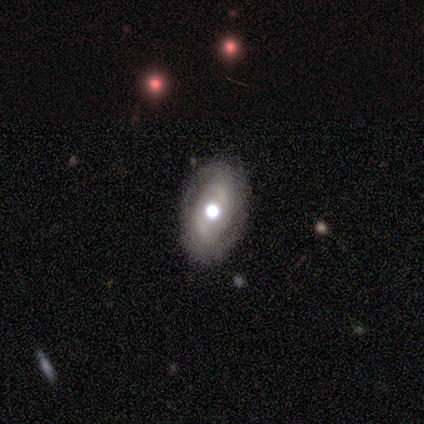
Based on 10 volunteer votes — smooth-or-featured: featured or disk: 70% | smooth: 20% | star or artifact: 10%
  disk-edge-on: no: 100% | yes: 0%
    bar: no: 57% | weak: 43% | strong: 0%
    has-spiral-arms: yes: 71% | no: 29%
      spiral-winding: tight: 100% | medium: 0% | loose: 0%
      spiral-arm-count: 2: 40% | 3: 20% | 4: 20% | can't tell: 20% | 1: 0% | more than 4: 0%
    bulge-size: large: 57% | moderate: 43% | dominant: 0% | small: 0% | none: 0%
  merging: none: 67% | minor disturbance: 33% | major disturbance: 0% | merger: 0%